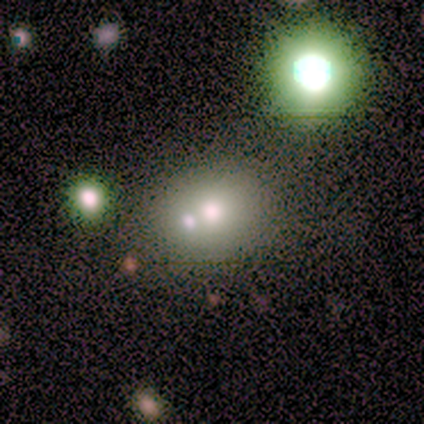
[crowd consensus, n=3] Smooth or featured?
  - smooth: 67% *
  - featured or disk: 33%
  - star or artifact: 0%
How rounded?
  - round: 100% *
  - in between: 0%
  - cigar-shaped: 0%
Merging?
  - merger: 67% *
  - none: 33%
  - minor disturbance: 0%
  - major disturbance: 0%